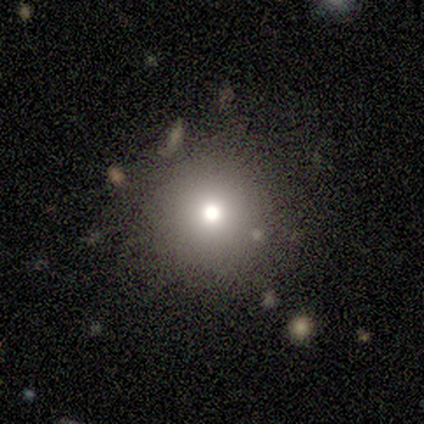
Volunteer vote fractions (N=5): Volunteers were most divided on "smooth or featured": smooth: 60%, featured or disk: 20%, star or artifact: 20%. More confident: how rounded — round (100%); merging — none (100%).